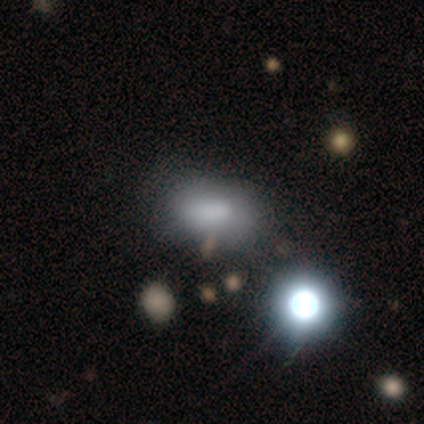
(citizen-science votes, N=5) smooth-or-featured: smooth: 60% | star or artifact: 40% | featured or disk: 0%
  how-rounded: in between: 100% | round: 0% | cigar-shaped: 0%
  merging: none: 33% (tied) | minor disturbance: 33% (tied) | major disturbance: 33% (tied) | merger: 0%